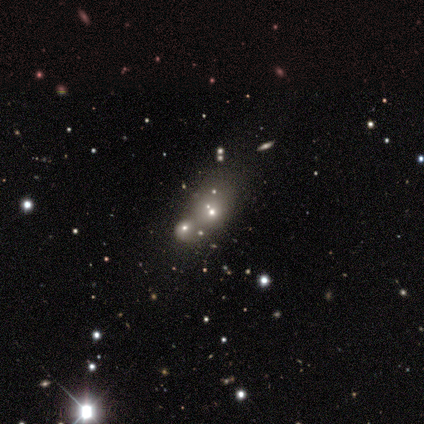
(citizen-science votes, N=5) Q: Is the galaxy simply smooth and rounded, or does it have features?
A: star or artifact — 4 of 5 (80%).